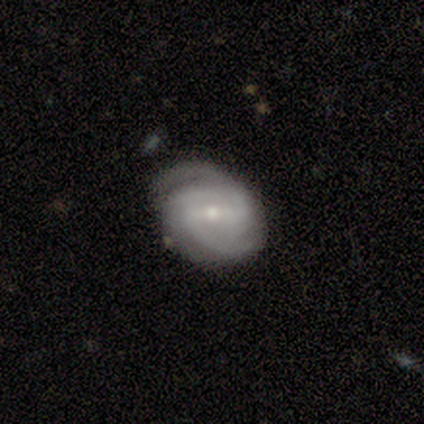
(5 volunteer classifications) A featured or disk galaxy (100%) with a weak bar (40%, tied with no), 2 (80%) medium (60%) spiral arms (100%) and a small central bulge (80%).

Vote fractions:
- Smooth or featured? featured or disk: 100% / smooth: 0% / star or artifact: 0%
- Edge-on disk? no: 100% / yes: 0%
- Bar? weak: 40% (tied) / no: 40% (tied) / strong: 20%
- Spiral arms? yes: 100% / no: 0%
- Spiral winding? medium: 60% / tight: 40% / loose: 0%
- Spiral arm count? 2: 80% / 3: 20% / 1: 0% / 4: 0% / more than 4: 0% / can't tell: 0%
- Bulge size? small: 80% / moderate: 20% / dominant: 0% / large: 0% / none: 0%
- Merging? none: 80% / minor disturbance: 20% / major disturbance: 0% / merger: 0%